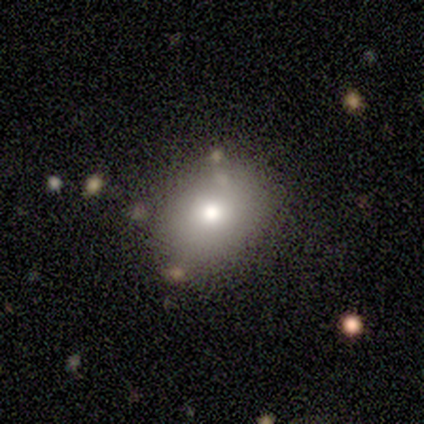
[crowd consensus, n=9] This is likely a smooth galaxy (67%). How rounded: possibly round (50%, tied with in between). Merging: clearly none (100%).